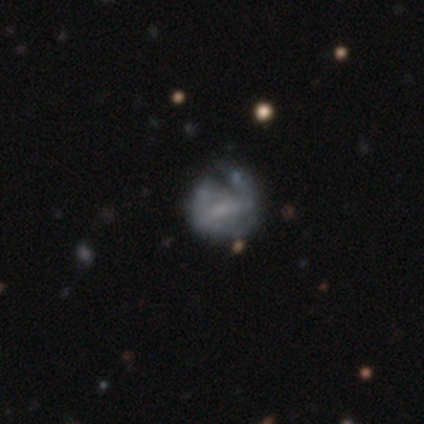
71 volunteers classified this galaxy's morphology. This appears to be a featured or disk galaxy (69%) with a weak bar (45%), no spiral arms (51%) and no central bulge (55%). Merging: none (34%).